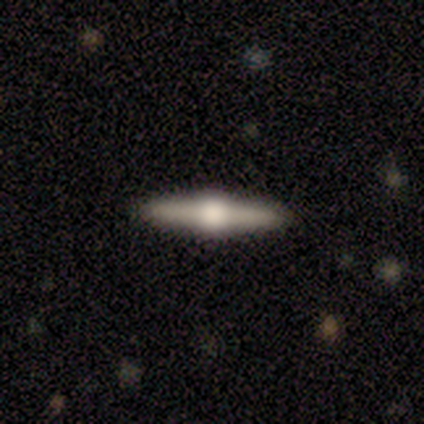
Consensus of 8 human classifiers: Morphology: type=featured or disk (88%); edge-on=yes (100%); edge-on bulge=rounded (100%); merging=none (100%).